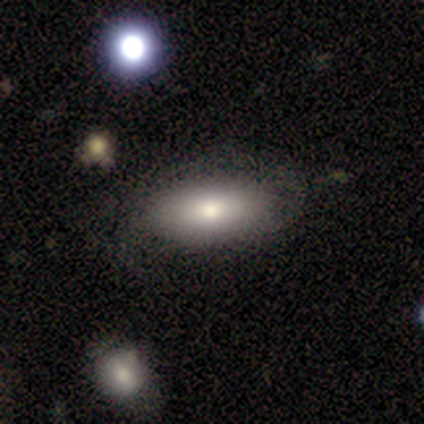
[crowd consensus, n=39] Overall: smooth (74%). How rounded: in between (93%). Merging: none (58%).